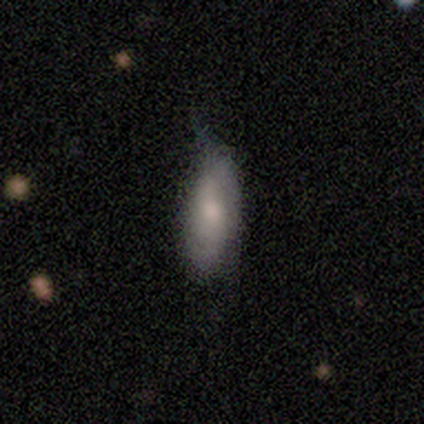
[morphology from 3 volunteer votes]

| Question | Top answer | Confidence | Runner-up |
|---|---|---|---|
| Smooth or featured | smooth | 67% | featured or disk (33%) |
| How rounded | in between | 100% | — |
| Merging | minor disturbance | 67% | major disturbance (33%) |